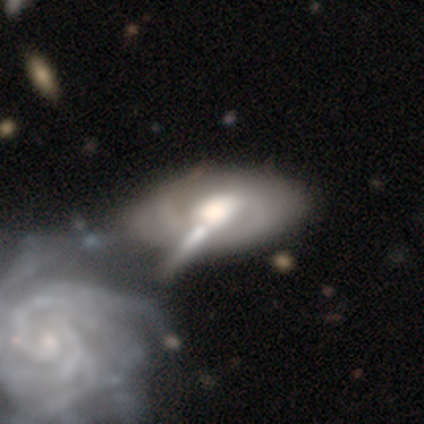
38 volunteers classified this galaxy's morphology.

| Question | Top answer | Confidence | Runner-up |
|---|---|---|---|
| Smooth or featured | featured or disk | 84% | smooth (16%) |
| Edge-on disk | no | 97% | yes (3%) |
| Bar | no | 65% | weak (29%) |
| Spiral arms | yes | 58% | no (42%) |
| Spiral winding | tight | 50% | medium (44%) |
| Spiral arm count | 2 | 44% | can't tell (39%) |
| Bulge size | large | 52% | moderate (32%) |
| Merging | merger | 42% | none (16%) |